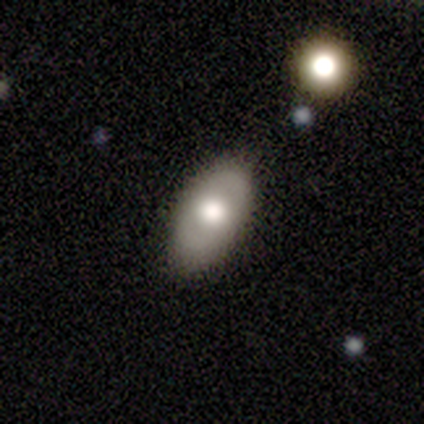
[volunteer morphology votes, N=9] Smooth or featured?
  - smooth: 67% *
  - featured or disk: 22%
  - star or artifact: 11%
How rounded?
  - in between: 100% *
  - round: 0%
  - cigar-shaped: 0%
Merging?
  - none: 100% *
  - minor disturbance: 0%
  - major disturbance: 0%
  - merger: 0%